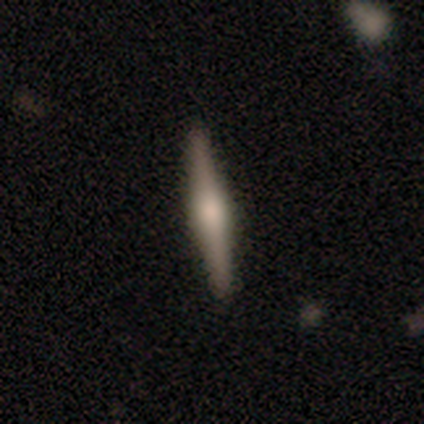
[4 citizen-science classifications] Smooth or featured: featured or disk — 100%
Edge-on disk: yes — 100%
Edge-on bulge: rounded — 100%
Merging: none — 100%